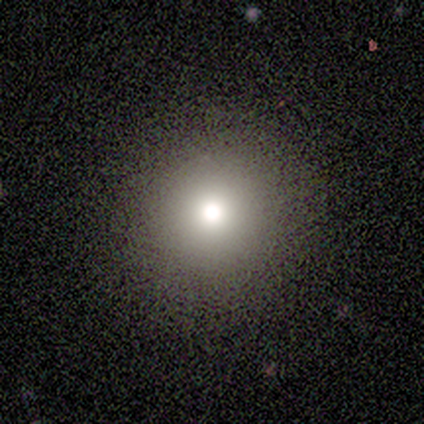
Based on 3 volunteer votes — This appears to be a smooth galaxy with no disk features (100%) that is round (100%). Merging: none (100%).